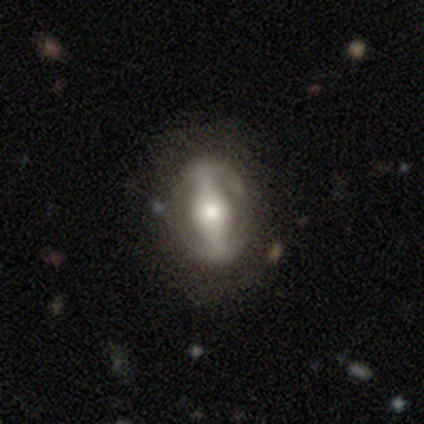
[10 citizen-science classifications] Volunteers were most divided on "bar": strong: 57%, weak: 29%, no: 14%. More confident: merging — none (89%); edge-on disk — no (88%); spiral arms — no (86%); bulge size — moderate (86%); smooth or featured — featured or disk (80%).